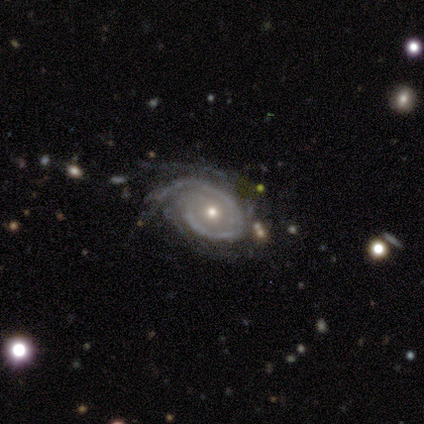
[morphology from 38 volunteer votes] Q: Smooth or featured?
A: featured or disk (87%); runner-up: star or artifact (11%)
Q: Edge-on disk?
A: no (94%); runner-up: yes (6%)
Q: Bar?
A: no (81%); runner-up: weak (16%)
Q: Spiral arms?
A: yes (97%); runner-up: no (3%)
Q: Spiral winding?
A: tight (60%); runner-up: medium (37%)
Q: Spiral arm count?
A: can't tell (33%); runner-up: 2 (27%)
Q: Bulge size?
A: moderate (68%); runner-up: small (29%)
Q: Merging?
A: none (44%); runner-up: minor disturbance (38%)